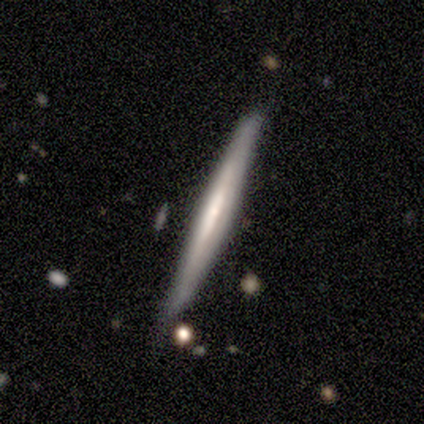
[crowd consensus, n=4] Morphology: type=smooth (50%, tied with featured or disk); roundness=cigar-shaped (100%); merging=none (50%, tied with minor disturbance).